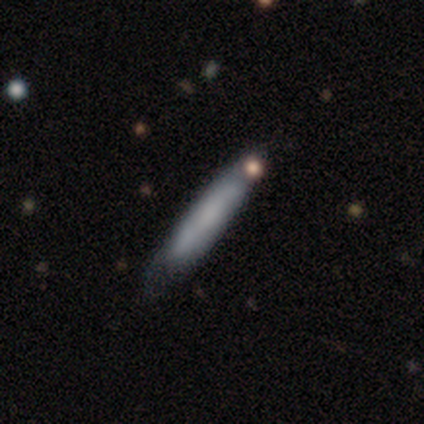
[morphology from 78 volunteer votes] type=smooth (64%); roundness=cigar-shaped (94%); merging=none (38%).